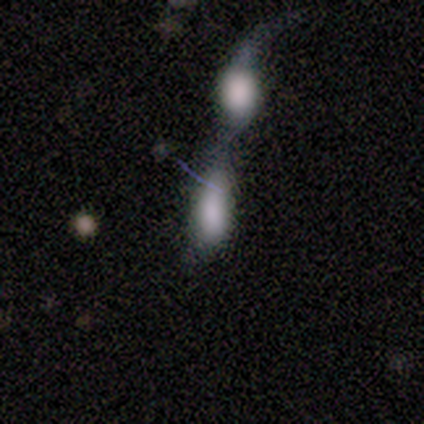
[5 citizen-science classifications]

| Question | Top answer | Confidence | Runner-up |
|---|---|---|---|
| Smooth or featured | smooth | 80% | featured or disk (20%) |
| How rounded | in between | 75% | cigar-shaped (25%) |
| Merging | merger | 100% | — |